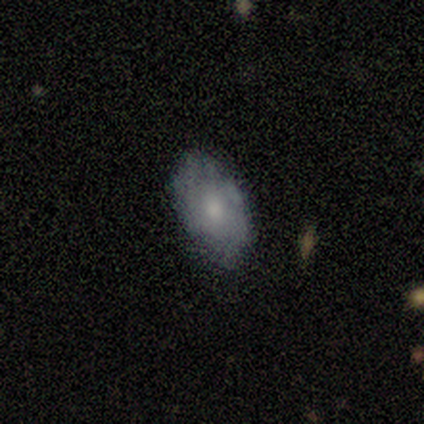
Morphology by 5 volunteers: smooth-or-featured: featured or disk: 60% | smooth: 40% | star or artifact: 0%
  disk-edge-on: no: 100% | yes: 0%
    bar: no: 67% | weak: 33% | strong: 0%
    has-spiral-arms: yes: 67% | no: 33%
      spiral-winding: medium: 100% | tight: 0% | loose: 0%
      spiral-arm-count: 2: 50% (tied) | can't tell: 50% (tied) | 1: 0% | 3: 0% | 4: 0% | more than 4: 0%
    bulge-size: small: 100% | dominant: 0% | large: 0% | moderate: 0% | none: 0%
  merging: none: 100% | minor disturbance: 0% | major disturbance: 0% | merger: 0%